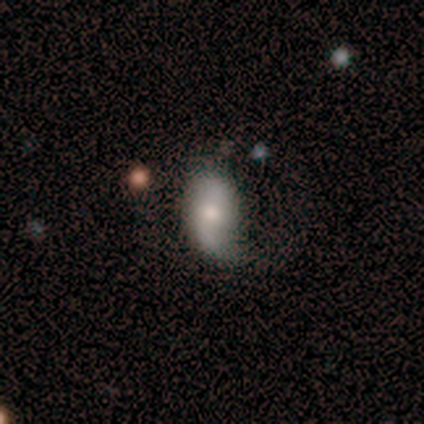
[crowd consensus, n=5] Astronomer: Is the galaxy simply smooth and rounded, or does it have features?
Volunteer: smooth — 80%.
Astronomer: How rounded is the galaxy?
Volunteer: in between — 100%.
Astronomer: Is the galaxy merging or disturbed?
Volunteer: none — 60%.